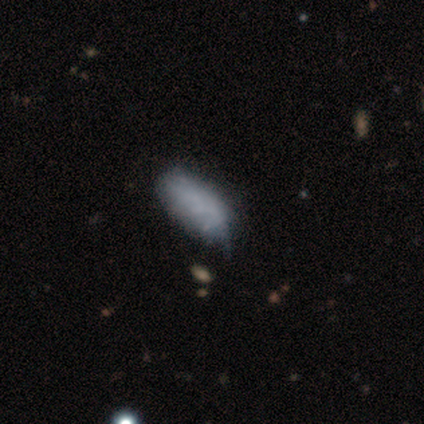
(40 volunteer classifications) smooth 70%, featured or disk 25%, star or artifact 5%. Down the decision tree: how rounded — in between (93%); merging — none (39%).